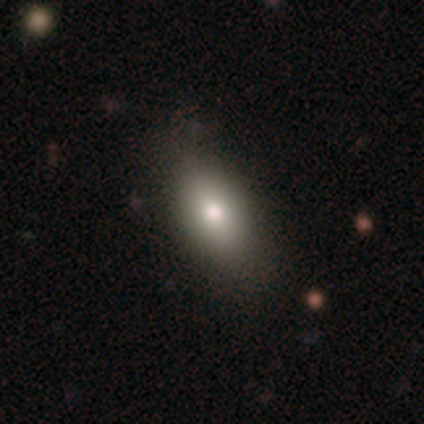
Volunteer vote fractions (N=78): This appears to be a smooth galaxy with no disk features (82%) that is in between round and cigar-shaped (89%). Merging: none (44%).